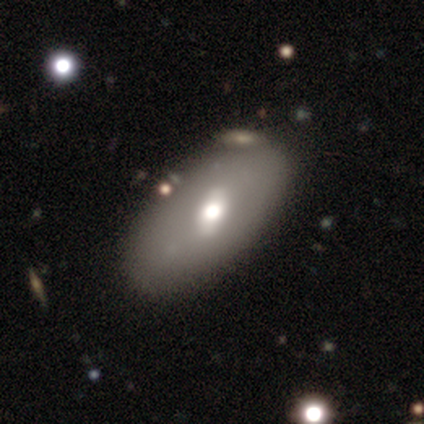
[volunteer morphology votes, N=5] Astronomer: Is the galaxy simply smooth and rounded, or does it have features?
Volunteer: smooth — 60% (runner-up: featured or disk, 40%).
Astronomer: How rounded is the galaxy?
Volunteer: in between — 100%.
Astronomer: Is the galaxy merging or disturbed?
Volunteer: none — 100%.